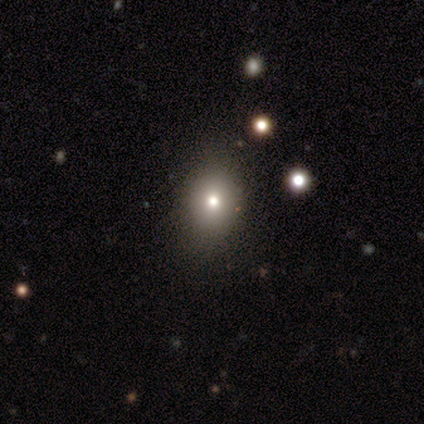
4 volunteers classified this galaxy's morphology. smooth-or-featured: star or artifact: 75% | smooth: 25% | featured or disk: 0%